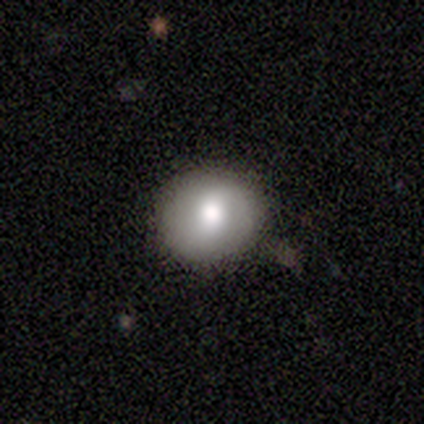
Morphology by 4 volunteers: type=smooth (75%); roundness=round (67%); merging=none (50%).